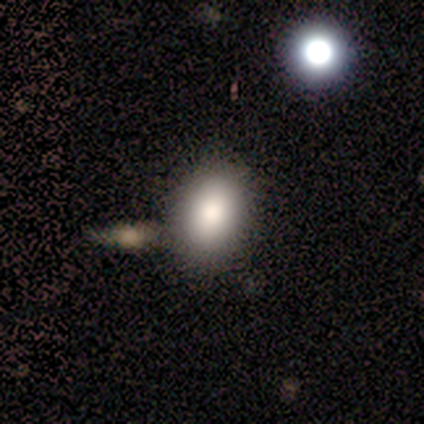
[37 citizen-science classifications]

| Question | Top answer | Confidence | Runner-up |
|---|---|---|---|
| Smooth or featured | smooth | 95% | featured or disk (5%) |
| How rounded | in between | 80% | round (20%) |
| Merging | none | 49% | merger (19%) |